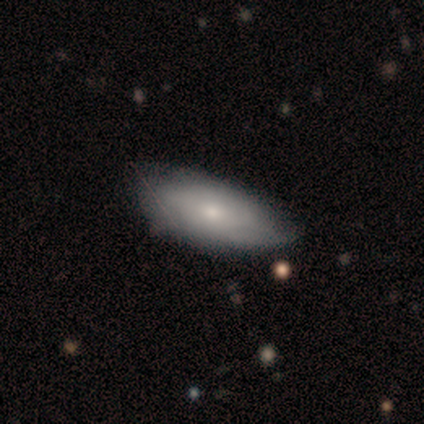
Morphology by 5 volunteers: Smooth or featured: smooth — 60% (featured or disk — 20%)
How rounded: in between — 100%
Merging: none — 50% (tied with minor disturbance — 50%)